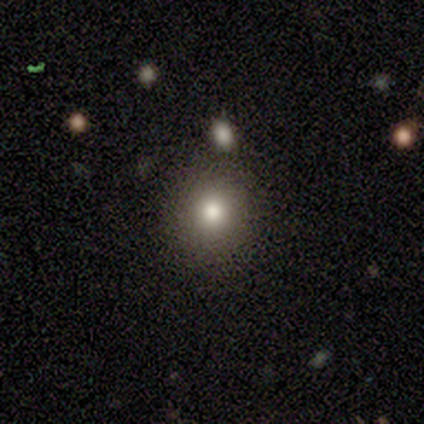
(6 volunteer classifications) This is clearly a smooth galaxy (83%). How rounded: clearly round (100%). Merging: clearly none (100%).